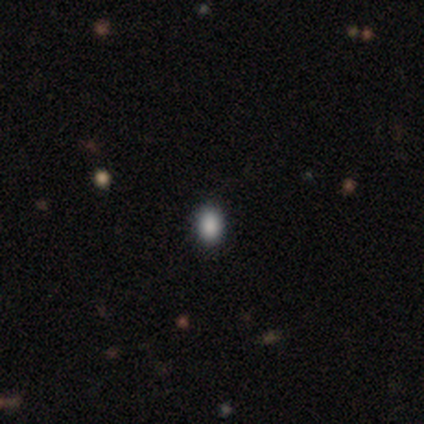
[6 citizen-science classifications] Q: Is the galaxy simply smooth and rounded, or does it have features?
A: smooth — 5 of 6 (83%).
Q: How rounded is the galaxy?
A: in between — 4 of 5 (80%).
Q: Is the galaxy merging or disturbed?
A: none — 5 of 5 (100%).